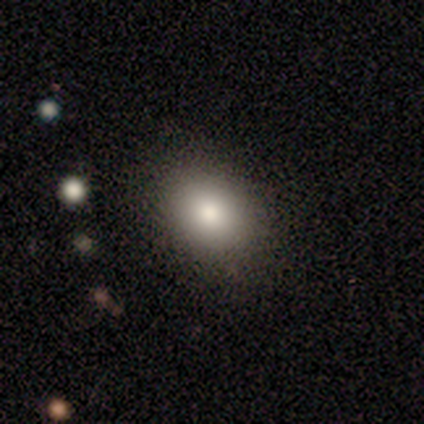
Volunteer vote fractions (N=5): Smooth or featured: smooth — 100%
How rounded: in between — 100%
Merging: none — 100%